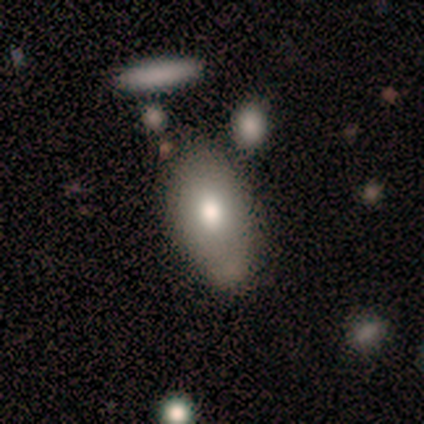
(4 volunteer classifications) Smooth or featured? 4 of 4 (100%) said smooth. How rounded? 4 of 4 (100%) said in between. Merging? 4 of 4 (100%) said none.